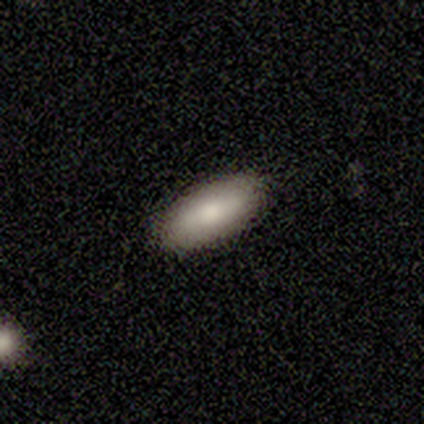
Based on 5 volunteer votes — This appears to be a smooth galaxy with no disk features (100%) that is in between round and cigar-shaped (100%). Merging: none (100%).